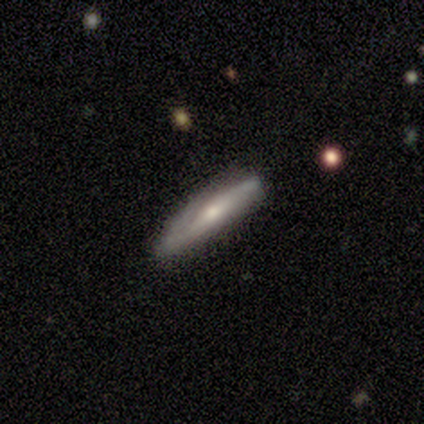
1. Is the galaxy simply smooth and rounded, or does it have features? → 53% featured or disk, 42% smooth, 5% star or artifact.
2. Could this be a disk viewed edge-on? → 80% yes, 20% no.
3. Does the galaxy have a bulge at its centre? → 75% rounded, 25% none, 0% boxy.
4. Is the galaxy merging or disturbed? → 58% none, 36% minor disturbance, 3% major disturbance, 3% merger.